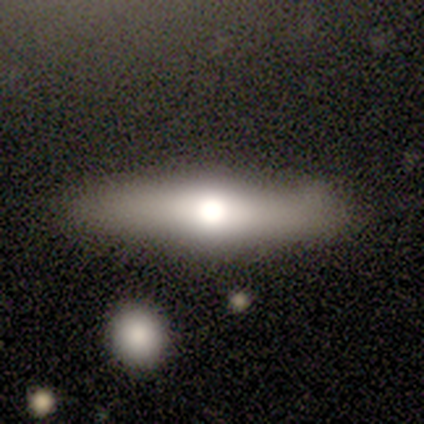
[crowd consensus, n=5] Smooth or featured?
  - smooth: 60% *
  - featured or disk: 40%
  - star or artifact: 0%
How rounded?
  - cigar-shaped: 67% *
  - round: 33%
  - in between: 0%
Merging?
  - none: 80% *
  - major disturbance: 20%
  - minor disturbance: 0%
  - merger: 0%